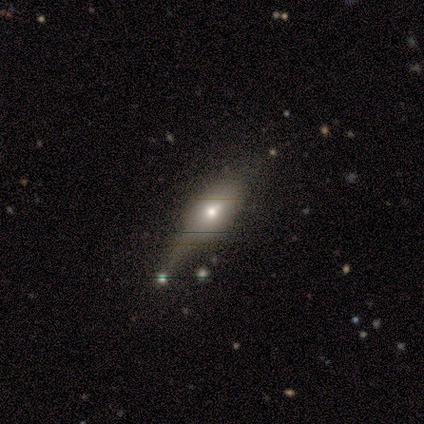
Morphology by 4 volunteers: smooth 50%, featured or disk 25%, star or artifact 25%. Down the decision tree: how rounded — in between (50%, tied with cigar-shaped); merging — none (33%, tied with major disturbance and merger).